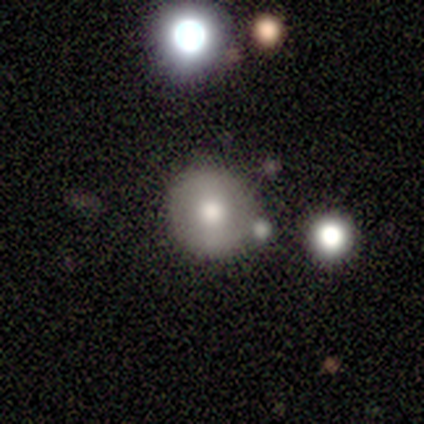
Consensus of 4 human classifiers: smooth_or_featured: star or artifact (p=0.50) [alt: smooth p=0.25]